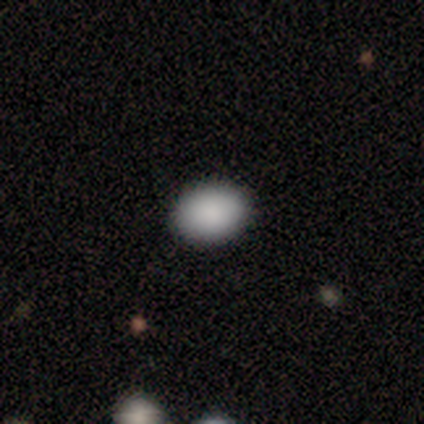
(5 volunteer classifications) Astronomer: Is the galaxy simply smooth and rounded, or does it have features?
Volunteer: smooth — 100%.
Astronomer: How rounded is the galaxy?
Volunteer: in between — 80%.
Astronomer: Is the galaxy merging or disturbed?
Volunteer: none — 100%.